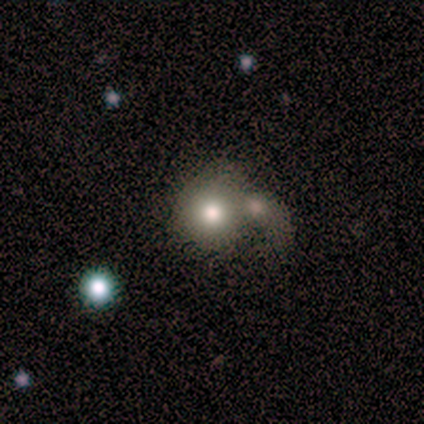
Volunteers were most divided on "smooth or featured": smooth: 60%, star or artifact: 40%, featured or disk: 0%. More confident: how rounded — round (100%); merging — merger (67%).